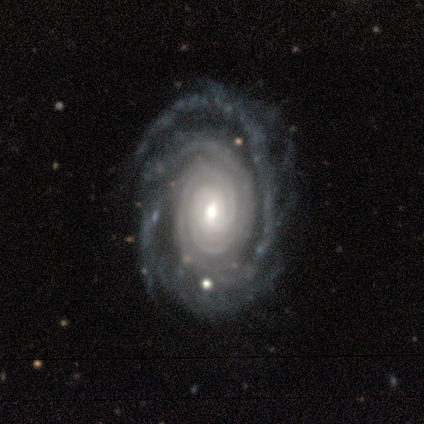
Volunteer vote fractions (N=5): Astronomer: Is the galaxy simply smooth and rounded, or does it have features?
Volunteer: featured or disk — 100%.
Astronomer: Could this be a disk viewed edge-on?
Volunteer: no — 100%.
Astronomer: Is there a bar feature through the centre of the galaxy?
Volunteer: no — 80%.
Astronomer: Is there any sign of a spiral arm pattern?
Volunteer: yes — 100%.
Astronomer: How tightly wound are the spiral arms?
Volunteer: tight — 100%.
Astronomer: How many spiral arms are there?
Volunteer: more than 4 — 40% (runner-up: 2, 20%).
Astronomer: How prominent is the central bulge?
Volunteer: moderate — 60% (runner-up: large, 40%).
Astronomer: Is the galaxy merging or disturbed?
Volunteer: none — 100%.